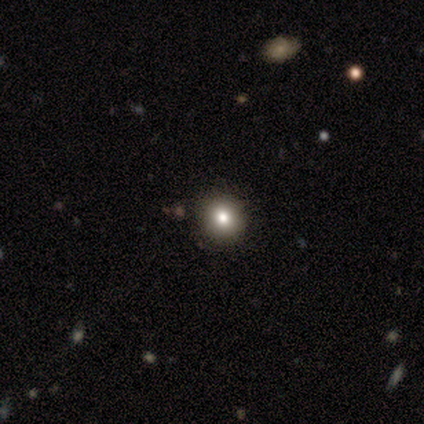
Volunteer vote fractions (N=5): This is marginally a smooth galaxy (40%, tied with star or artifact). How rounded: possibly round (50%, tied with in between). Merging: clearly none (100%).